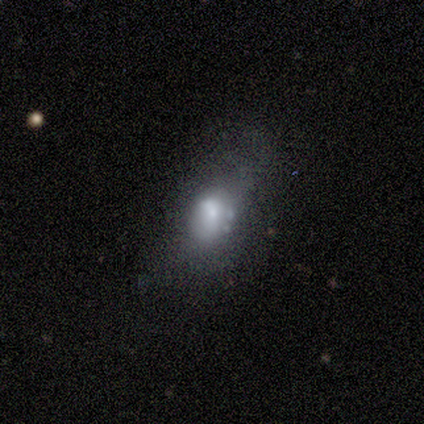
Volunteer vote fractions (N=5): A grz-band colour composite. It shows a smooth galaxy with no disk features (60%) that is in between round and cigar-shaped (67%). Merging: minor disturbance (80%).